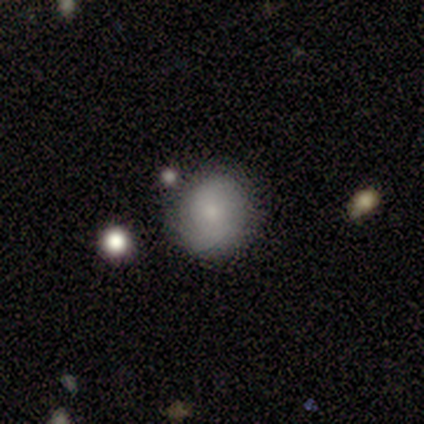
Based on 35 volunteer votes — smooth 71%, star or artifact 17%, featured or disk 11%. Down the decision tree: how rounded — round (92%); merging — none (83%).